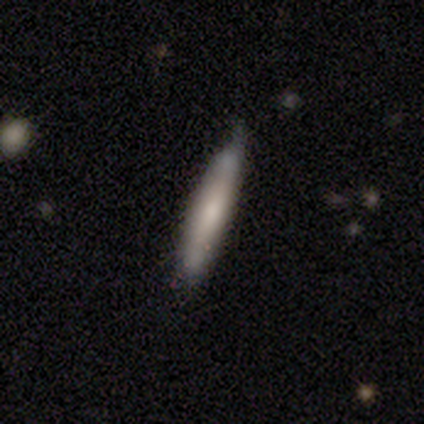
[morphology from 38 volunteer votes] smooth 55%, featured or disk 39%, star or artifact 5%. Down the decision tree: how rounded — cigar-shaped (95%); merging — none (75%).